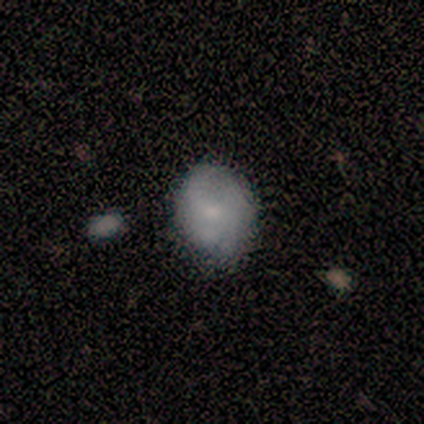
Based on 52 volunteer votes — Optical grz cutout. It shows a smooth galaxy with no disk features (60%) that is in between round and cigar-shaped (58%). Merging: none (68%).